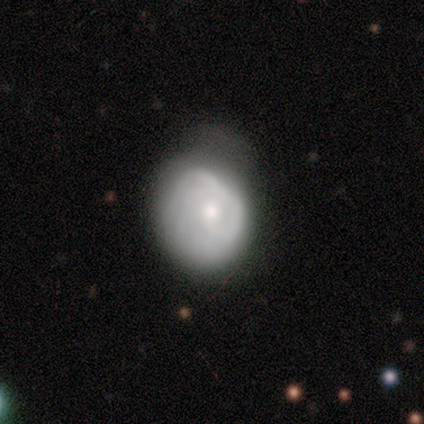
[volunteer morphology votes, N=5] A smooth galaxy with no disk features (40%, tied with featured or disk) that is round (50%, tied with in between). Merging: none (50%, tied with minor disturbance).